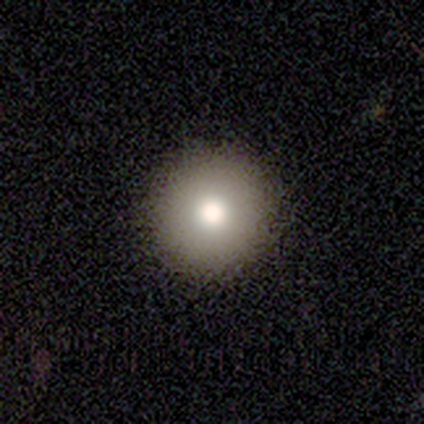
Q: Smooth or featured?
A: smooth (87%); runner-up: featured or disk (8%)
Q: How rounded?
A: round (100%)
Q: Merging?
A: none (75%)